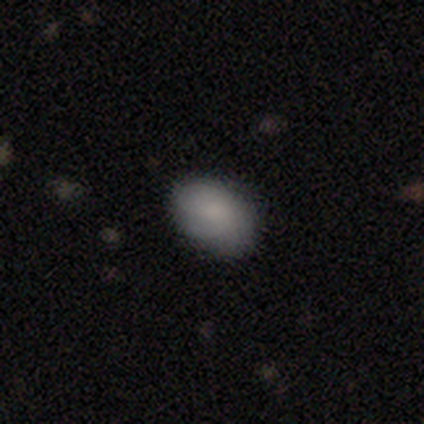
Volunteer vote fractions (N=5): Smooth or featured? 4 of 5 (80%) said smooth. How rounded? 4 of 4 (100%) said in between. Merging? 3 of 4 (75%) said none.